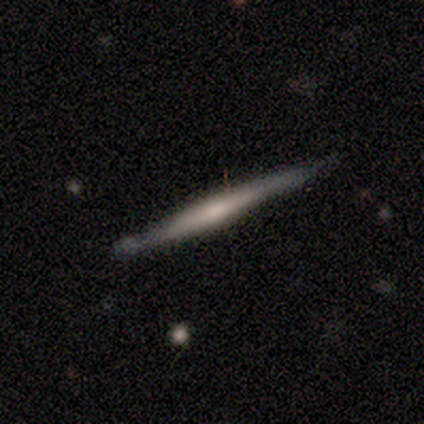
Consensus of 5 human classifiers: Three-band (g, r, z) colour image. It shows a featured or disk galaxy (80%) viewed edge-on (100%) with a rounded central bulge (75%). Merging: minor disturbance (60%).